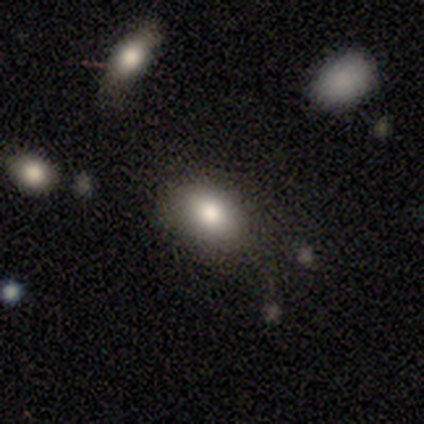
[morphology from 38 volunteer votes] smooth 87%, featured or disk 8%, star or artifact 5%. Down the decision tree: how rounded — in between (94%); merging — none (83%).